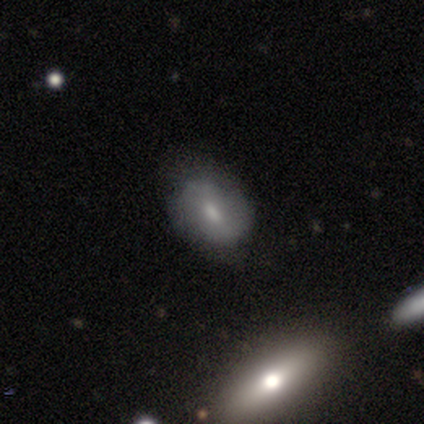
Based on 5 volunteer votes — Smooth or featured: smooth — 60% (featured or disk — 40%)
How rounded: in between — 67% (round — 33%)
Merging: none — 80% (minor disturbance — 20%)